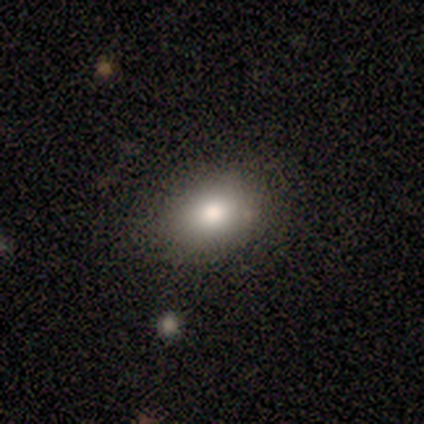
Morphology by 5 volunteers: smooth-or-featured: smooth: 40% (tied) | featured or disk: 40% (tied) | star or artifact: 20%
  how-rounded: in between: 100% | round: 0% | cigar-shaped: 0%
  merging: none: 50% (tied) | minor disturbance: 50% (tied) | major disturbance: 0% | merger: 0%